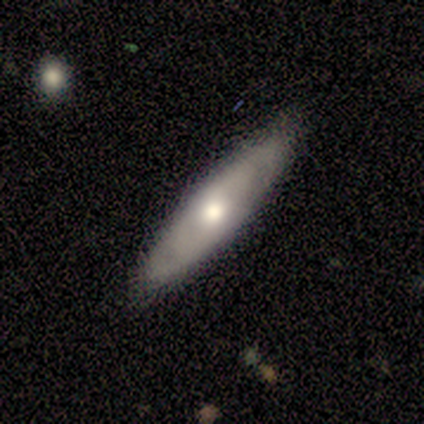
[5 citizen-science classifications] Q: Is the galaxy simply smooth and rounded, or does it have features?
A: featured or disk — 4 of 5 (80%).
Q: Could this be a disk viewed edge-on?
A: yes — 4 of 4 (100%).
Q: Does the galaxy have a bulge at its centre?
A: rounded — 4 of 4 (100%).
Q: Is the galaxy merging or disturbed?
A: none — 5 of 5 (100%).